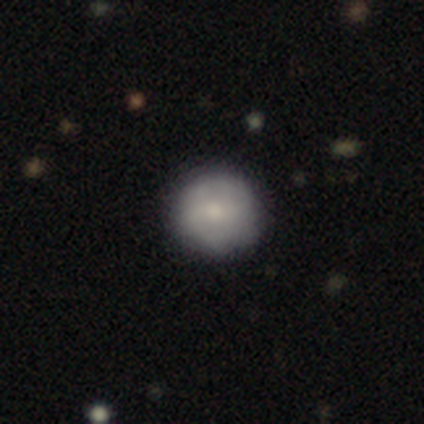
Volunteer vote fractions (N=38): Smooth or featured?
  - smooth: 61% *
  - featured or disk: 26%
  - star or artifact: 13%
How rounded?
  - round: 87% *
  - in between: 13%
  - cigar-shaped: 0%
Merging?
  - none: 76% *
  - minor disturbance: 15%
  - major disturbance: 9%
  - merger: 0%